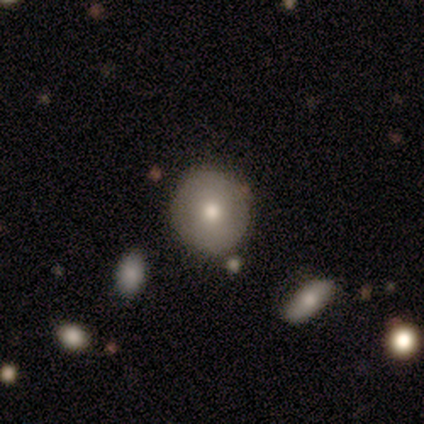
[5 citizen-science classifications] Volunteers were most divided on "smooth or featured": smooth: 80%, featured or disk: 20%, star or artifact: 0%. More confident: how rounded — round (100%); merging — none (100%).